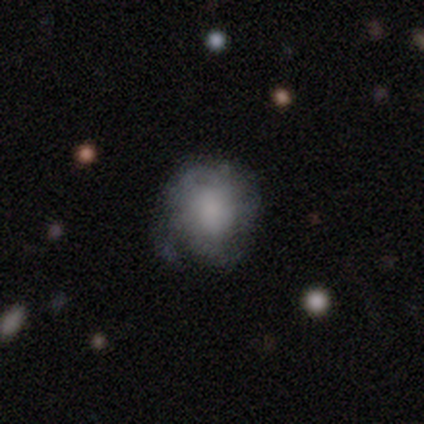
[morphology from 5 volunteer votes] smooth_or_featured: smooth (p=0.80) [alt: featured or disk p=0.20]
how_rounded: round (p=0.75) [alt: in between p=0.25]
merging: none (p=0.40) [tied with: minor disturbance p=0.40]